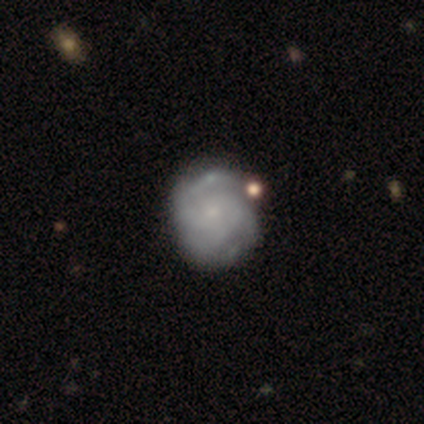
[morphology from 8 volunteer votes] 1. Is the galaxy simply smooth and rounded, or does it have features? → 62% featured or disk, 38% smooth, 0% star or artifact.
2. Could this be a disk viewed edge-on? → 100% no, 0% yes.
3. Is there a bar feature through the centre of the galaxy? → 60% no, 40% weak, 0% strong.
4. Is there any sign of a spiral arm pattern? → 100% yes, 0% no.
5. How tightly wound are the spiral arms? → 60% tight, 40% medium, 0% loose.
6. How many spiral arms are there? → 60% can't tell, 20% 2, 20% 3, 0% 1, 0% 4, 0% more than 4.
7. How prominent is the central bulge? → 80% small, 20% none, 0% dominant, 0% large, 0% moderate.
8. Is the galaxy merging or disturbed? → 50% none, 25% minor disturbance, 25% merger, 0% major disturbance.